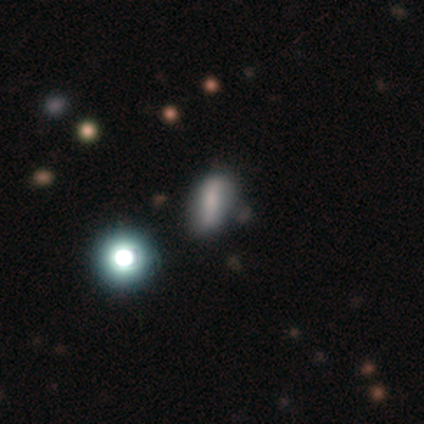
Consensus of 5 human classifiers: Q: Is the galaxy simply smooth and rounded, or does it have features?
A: smooth — 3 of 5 (60%).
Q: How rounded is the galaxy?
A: cigar-shaped — 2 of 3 (67%).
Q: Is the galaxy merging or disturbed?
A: minor disturbance — 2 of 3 (67%).